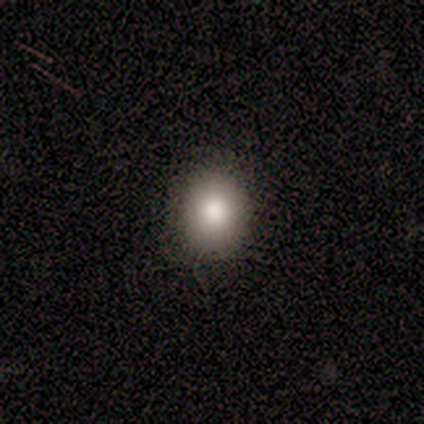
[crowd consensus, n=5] A smooth galaxy with no disk features (100%) that is in between round and cigar-shaped (60%). Merging: none (60%).